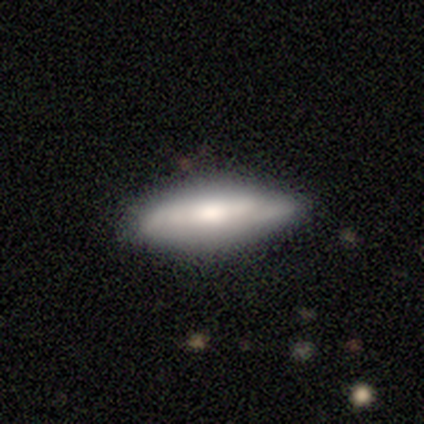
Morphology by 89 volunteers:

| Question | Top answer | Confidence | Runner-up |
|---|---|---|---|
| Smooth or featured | smooth | 54% | featured or disk (42%) |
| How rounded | in between | 50% | tied: cigar-shaped (50%) |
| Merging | none | 69% | minor disturbance (25%) |